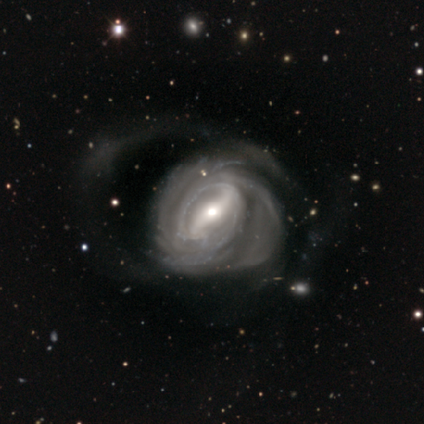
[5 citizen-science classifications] Smooth or featured? featured or disk (100%)
Edge-on disk? no (100%)
Bar? strong (60%)
Spiral arms? yes (80%)
Spiral winding? tight (50%, tied with medium)
Spiral arm count? 2 (50%, tied with 3)
Bulge size? moderate (60%)
Merging? major disturbance (100%)